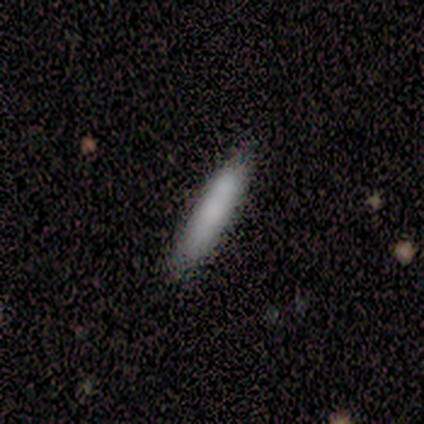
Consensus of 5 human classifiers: Overall: smooth (60%; featured or disk 40%). How rounded: cigar-shaped (100%). Merging: none (80%).